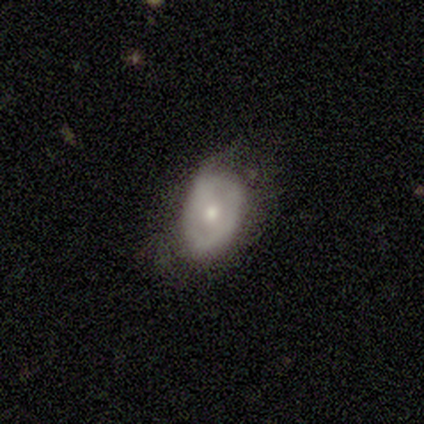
Smooth or featured: smooth — 75% (featured or disk — 25%)
How rounded: in between — 100%
Merging: none — 50% (tied with minor disturbance — 50%)